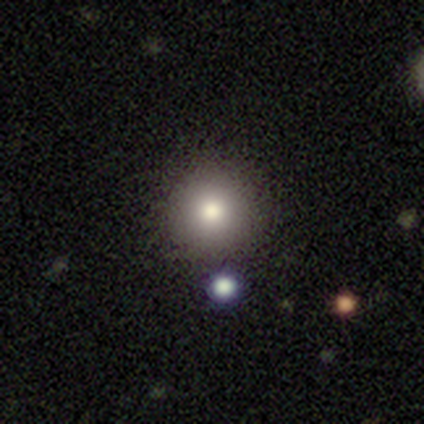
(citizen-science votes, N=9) Smooth or featured: smooth — 67% (star or artifact — 22%)
How rounded: round — 67% (in between — 33%)
Merging: none — 86% (major disturbance — 14%)